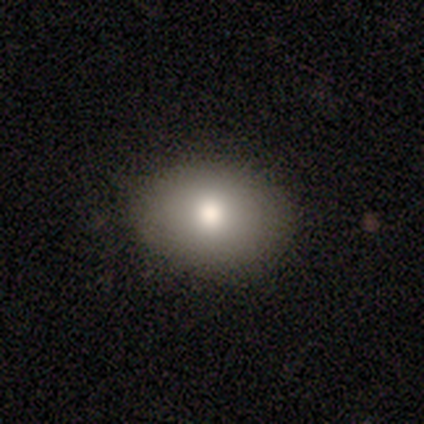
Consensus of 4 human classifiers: smooth_or_featured: smooth (p=0.50) [tied with: star or artifact p=0.50]
how_rounded: round (p=0.50) [tied with: in between p=0.50]
merging: none (p=1.00)